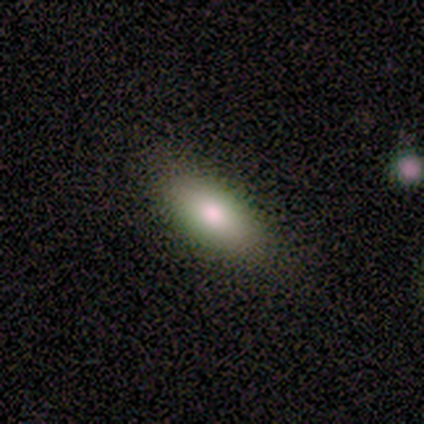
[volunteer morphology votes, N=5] smooth 100%, featured or disk 0%, star or artifact 0%. Down the decision tree: how rounded — in between (60%); merging — none (80%).